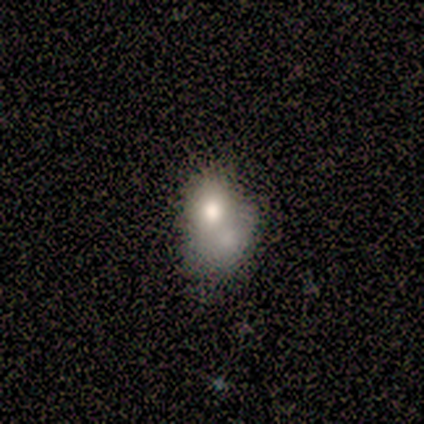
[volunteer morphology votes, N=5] A smooth galaxy with no disk features (80%) that is in between round and cigar-shaped (75%).

Vote fractions:
- Smooth or featured? smooth: 80% / featured or disk: 20% / star or artifact: 0%
- How rounded? in between: 75% / round: 25% / cigar-shaped: 0%
- Merging? none: 60% / major disturbance: 40% / minor disturbance: 0% / merger: 0%